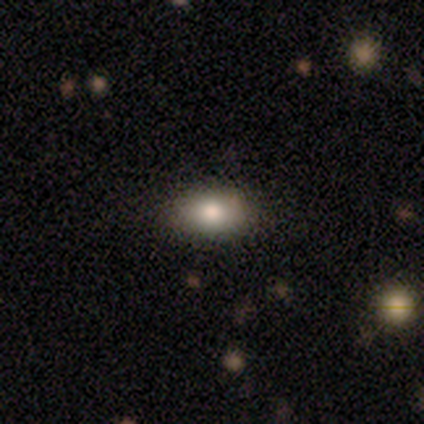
Smooth or featured: smooth — 74% (featured or disk — 13%)
How rounded: in between — 76% (round — 24%)
Merging: none — 82% (minor disturbance — 12%)